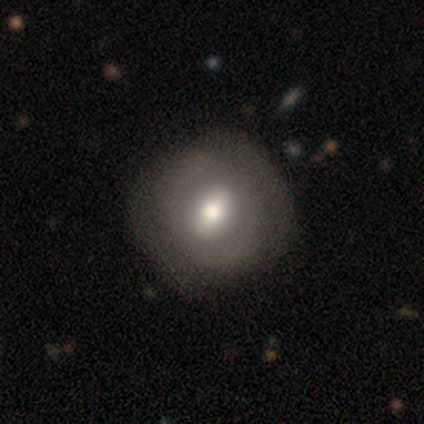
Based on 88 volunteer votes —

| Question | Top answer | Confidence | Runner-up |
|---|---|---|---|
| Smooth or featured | smooth | 57% | featured or disk (40%) |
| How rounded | round | 70% | in between (26%) |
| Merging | none | 74% | minor disturbance (20%) |